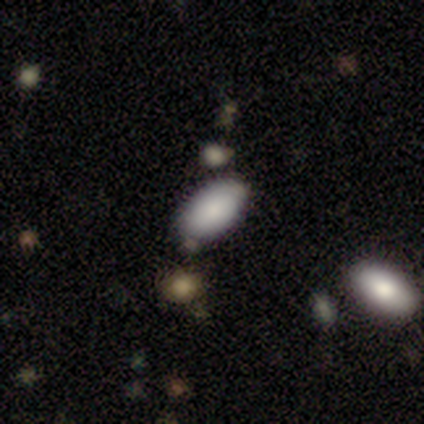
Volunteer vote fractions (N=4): Smooth or featured: smooth — 100%
How rounded: in between — 100%
Merging: none — 75% (minor disturbance — 25%)